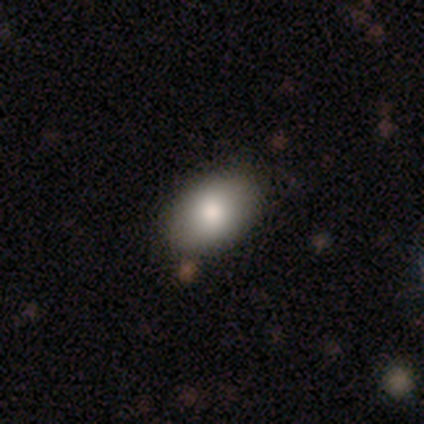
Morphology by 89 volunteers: smooth-or-featured: smooth: 83% | featured or disk: 11% | star or artifact: 6%
  how-rounded: in between: 88% | round: 12% | cigar-shaped: 0%
  merging: none: 88% | minor disturbance: 6% | major disturbance: 5% | merger: 1%